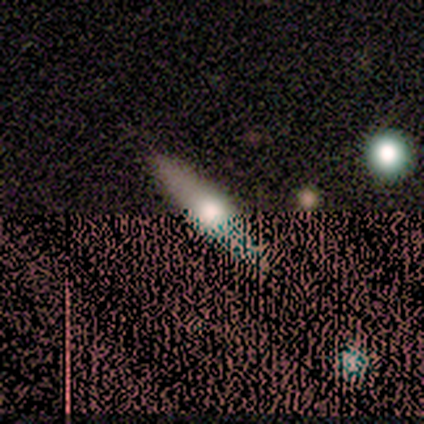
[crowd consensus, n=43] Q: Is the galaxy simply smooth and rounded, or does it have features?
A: featured or disk — 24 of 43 (56%).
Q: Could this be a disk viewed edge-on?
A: yes — 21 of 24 (88%).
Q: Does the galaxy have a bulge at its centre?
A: rounded — 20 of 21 (95%).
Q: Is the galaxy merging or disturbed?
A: none — 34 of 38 (89%).